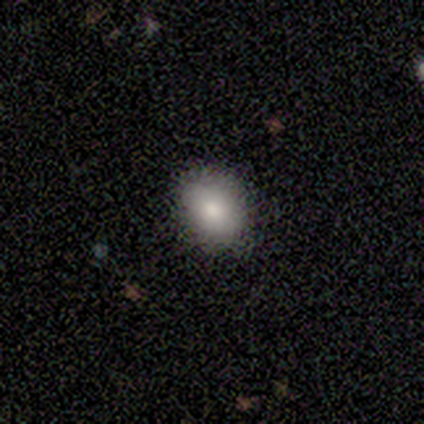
Q: Smooth or featured?
A: smooth (60%); runner-up: featured or disk (20%)
Q: How rounded?
A: round (67%); runner-up: in between (33%)
Q: Merging?
A: none (100%)